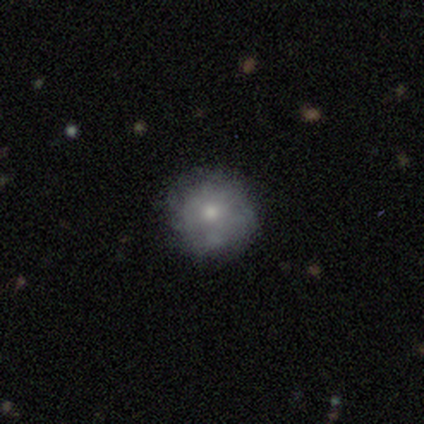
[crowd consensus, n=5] Smooth or featured: smooth — 40% (tied with featured or disk — 40%)
How rounded: round — 100%
Merging: none — 75% (minor disturbance — 25%)